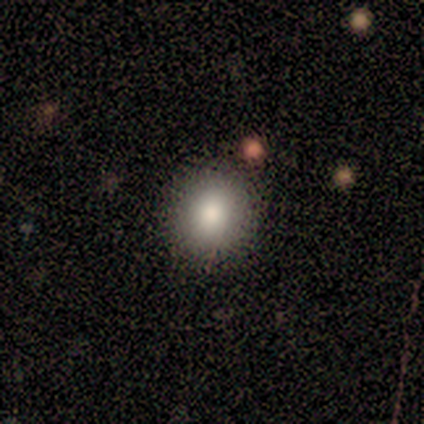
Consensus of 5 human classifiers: Morphology: type=smooth (80%); roundness=round (75%); merging=none (80%).